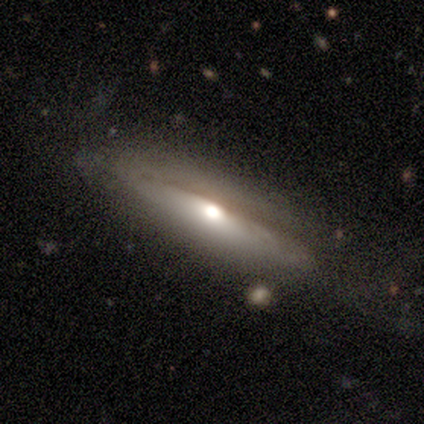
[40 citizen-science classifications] A featured or disk galaxy (55%) viewed edge-on (86%) with a rounded central bulge (95%).

Vote fractions:
- Smooth or featured? featured or disk: 55% / smooth: 42% / star or artifact: 2%
- Edge-on disk? yes: 86% / no: 14%
- Edge-on bulge? rounded: 95% / boxy: 5% / none: 0%
- Merging? none: 67% / minor disturbance: 18% / major disturbance: 13% / merger: 3%